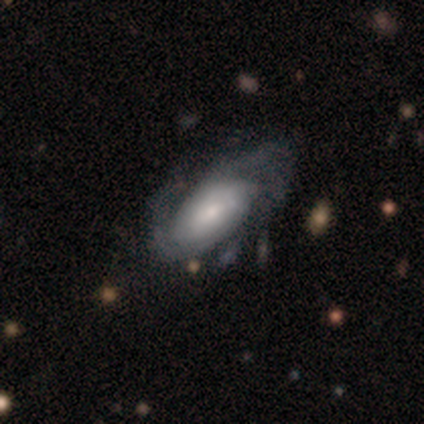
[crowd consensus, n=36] This appears to be a featured or disk galaxy (83%) with no bar (69%), tight (45%) spiral arms (100%) and a small central bulge (45%). Merging: none (57%).